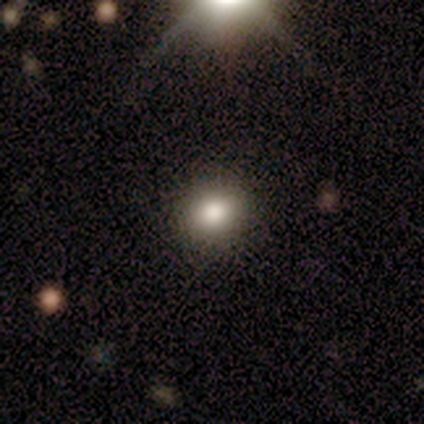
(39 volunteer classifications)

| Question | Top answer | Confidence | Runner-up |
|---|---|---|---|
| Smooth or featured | smooth | 79% | star or artifact (13%) |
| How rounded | round | 58% | in between (39%) |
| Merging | none | 82% | major disturbance (12%) |